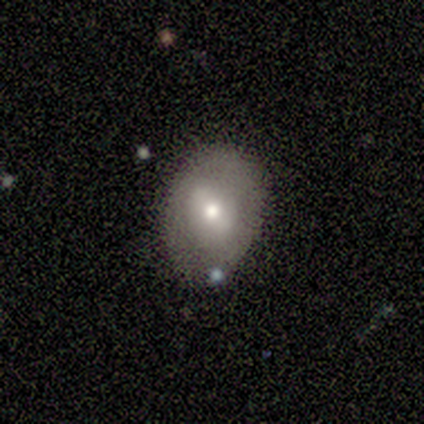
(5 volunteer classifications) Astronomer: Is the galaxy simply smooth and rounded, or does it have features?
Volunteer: smooth — 100%.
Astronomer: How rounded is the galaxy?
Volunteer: in between — 60% (runner-up: round, 40%).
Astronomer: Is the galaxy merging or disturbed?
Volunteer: none — 60%.